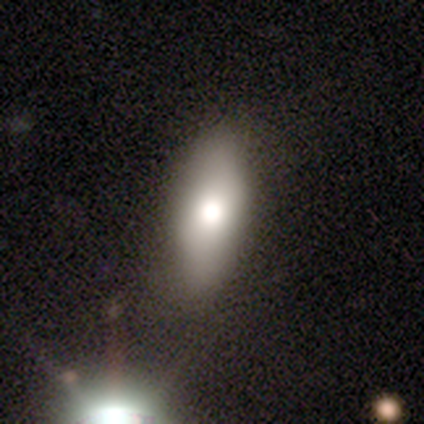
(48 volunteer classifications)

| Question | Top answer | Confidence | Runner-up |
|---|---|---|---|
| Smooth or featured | smooth | 79% | featured or disk (19%) |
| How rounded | in between | 79% | round (11%) |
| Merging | none | 74% | minor disturbance (21%) |